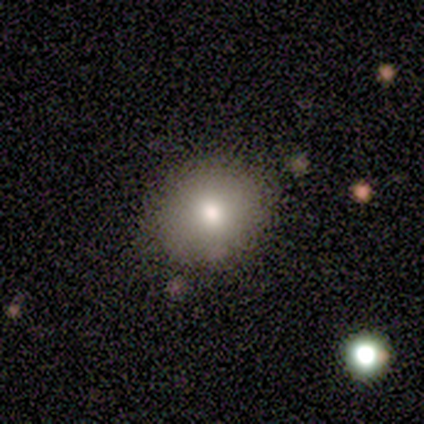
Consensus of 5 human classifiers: Smooth or featured? 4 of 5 (80%) said smooth. How rounded? 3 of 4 (75%) said round. Merging? 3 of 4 (75%) said none.